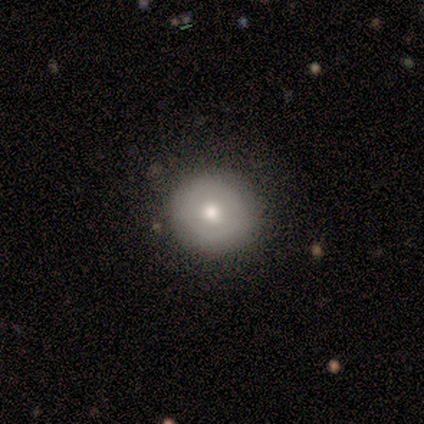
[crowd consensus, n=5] Smooth or featured? 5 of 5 (100%) said smooth. How rounded? 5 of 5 (100%) said round. Merging? 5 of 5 (100%) said none.